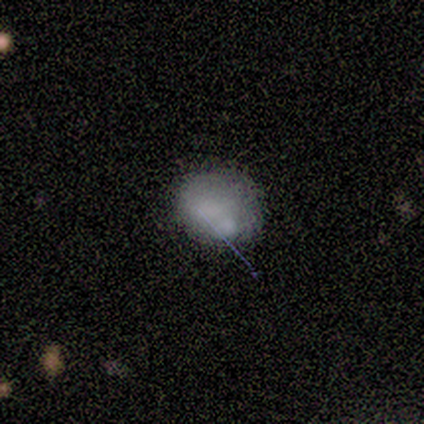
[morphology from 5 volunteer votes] featured or disk 60%, smooth 40%, star or artifact 0%. Down the decision tree: edge-on disk — no (100%); bar — no (100%); spiral arms — no (100%); bulge size — none (100%); merging — none (60%).